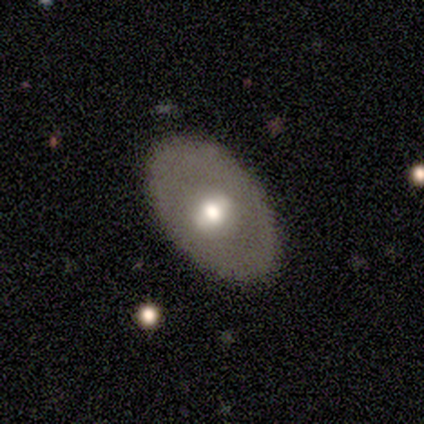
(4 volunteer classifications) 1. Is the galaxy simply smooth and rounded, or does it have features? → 75% featured or disk, 25% smooth, 0% star or artifact.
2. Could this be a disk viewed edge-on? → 67% no, 33% yes.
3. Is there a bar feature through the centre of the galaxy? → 100% strong, 0% weak, 0% no.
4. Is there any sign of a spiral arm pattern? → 100% no, 0% yes.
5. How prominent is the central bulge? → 100% moderate, 0% dominant, 0% large, 0% small, 0% none.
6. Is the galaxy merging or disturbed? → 100% none, 0% minor disturbance, 0% major disturbance, 0% merger.